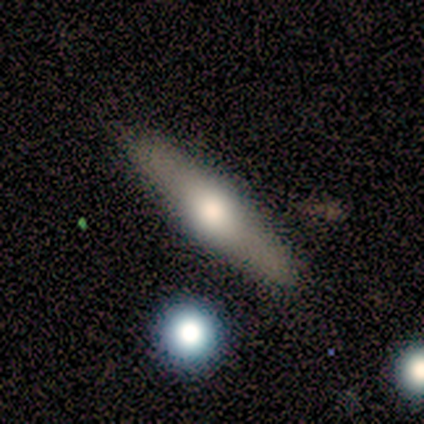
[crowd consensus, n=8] Smooth or featured? 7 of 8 (88%) said featured or disk. Edge-on disk? 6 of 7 (86%) said yes. Edge-on bulge? 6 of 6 (100%) said rounded. Merging? 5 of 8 (62%) said none.